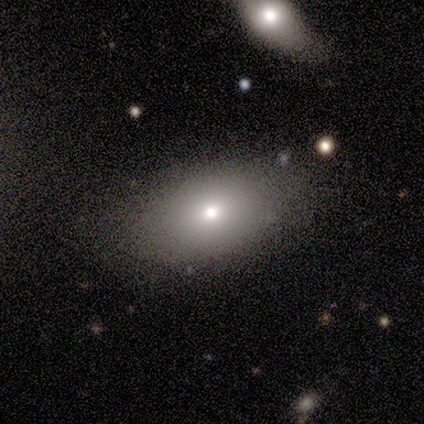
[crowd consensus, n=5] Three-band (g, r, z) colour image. It shows a smooth galaxy with no disk features (100%) that is in between round and cigar-shaped (80%). Merging: none (80%).